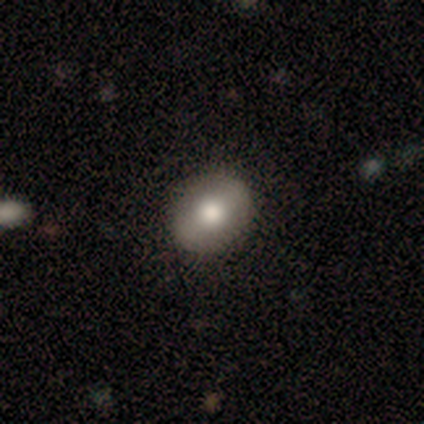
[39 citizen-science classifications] Morphology: type=smooth (51%); roundness=round (50%, tied with in between); merging=none (97%).